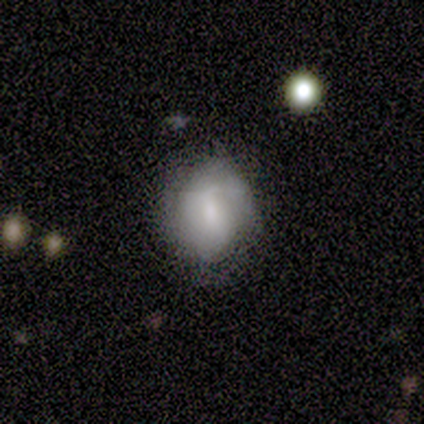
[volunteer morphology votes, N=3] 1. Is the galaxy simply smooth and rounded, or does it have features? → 100% smooth, 0% featured or disk, 0% star or artifact.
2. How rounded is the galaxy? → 67% round, 33% in between, 0% cigar-shaped.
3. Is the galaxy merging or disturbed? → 100% none, 0% minor disturbance, 0% major disturbance, 0% merger.